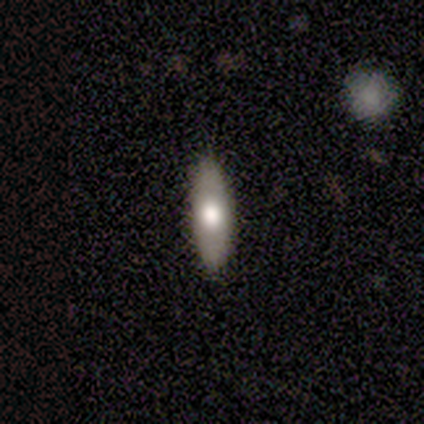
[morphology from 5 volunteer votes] Smooth or featured?
  - featured or disk: 60% *
  - smooth: 40%
  - star or artifact: 0%
Edge-on disk?
  - yes: 100% *
  - no: 0%
Edge-on bulge?
  - rounded: 100% *
  - boxy: 0%
  - none: 0%
Merging?
  - none: 100% *
  - minor disturbance: 0%
  - major disturbance: 0%
  - merger: 0%